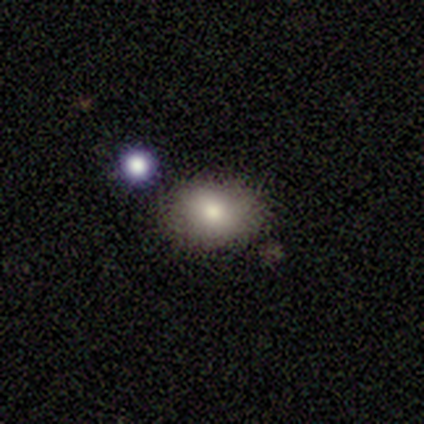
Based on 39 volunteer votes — A smooth galaxy with no disk features (69%) that is in between round and cigar-shaped (56%). Merging: none (81%).